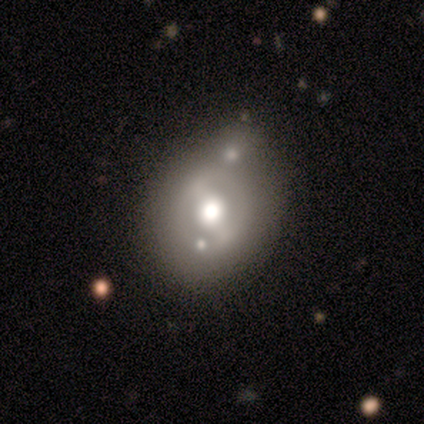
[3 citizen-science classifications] featured or disk 67%, smooth 33%, star or artifact 0%. Down the decision tree: edge-on disk — no (100%); bar — weak (50%, tied with no); spiral arms — no (100%); bulge size — moderate (100%); merging — none (100%).